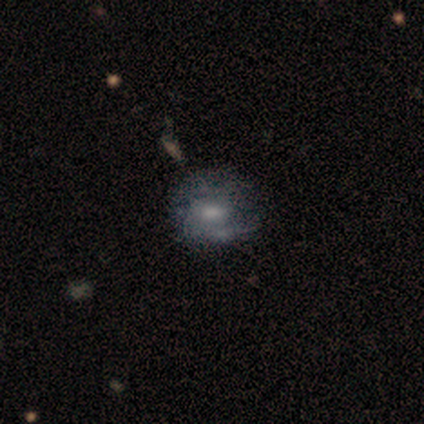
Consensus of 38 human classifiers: featured or disk 53%, smooth 39%, star or artifact 8%. Down the decision tree: edge-on disk — no (95%); bar — no (53%); spiral arms — yes (63%); spiral arm count — 2 (50%); spiral winding — medium (50%); bulge size — moderate (53%); merging — none (71%).